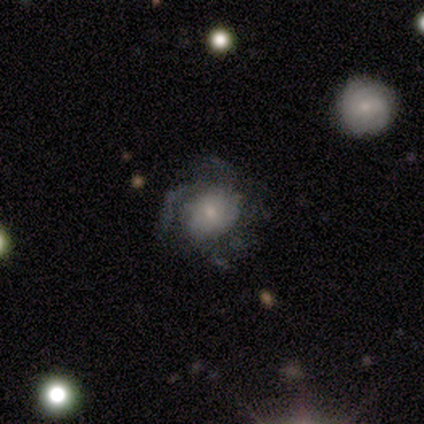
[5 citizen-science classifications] This appears to be a featured or disk galaxy (60%) with no bar (67%), 3 (50%, tied with can't tell) medium (100%) spiral arms (67%) and a small central bulge (67%). Merging: none (50%).